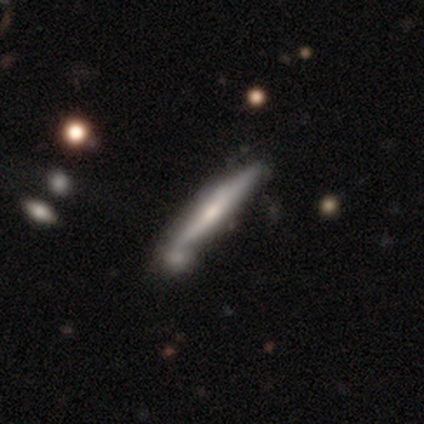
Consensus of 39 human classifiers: Smooth or featured: featured or disk — 64% (smooth — 28%)
Edge-on disk: yes — 92% (no — 8%)
Edge-on bulge: rounded — 61% (none — 26%)
Merging: none — 50% (merger — 31%)